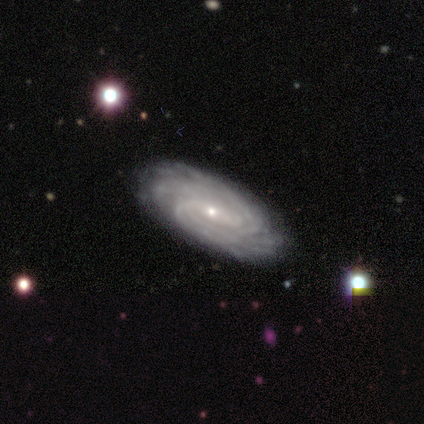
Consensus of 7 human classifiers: Smooth or featured? featured or disk (86%)
Edge-on disk? no (100%)
Bar? weak (83%)
Spiral arms? yes (100%)
Spiral winding? tight (83%)
Spiral arm count? can't tell (50%)
Bulge size? small (83%)
Merging? none (100%)